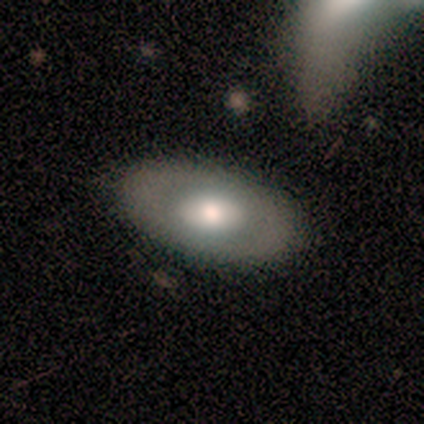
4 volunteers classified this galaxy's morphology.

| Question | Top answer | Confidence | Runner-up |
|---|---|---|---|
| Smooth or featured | smooth | 50% | tied: featured or disk (50%) |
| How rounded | in between | 100% | — |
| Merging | none | 100% | — |